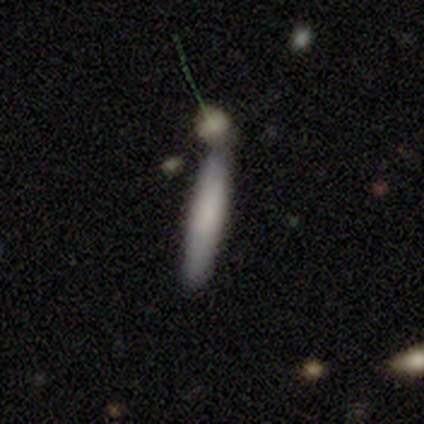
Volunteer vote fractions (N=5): A smooth galaxy with no disk features (100%) that is cigar-shaped (100%). Merging: none (60%).